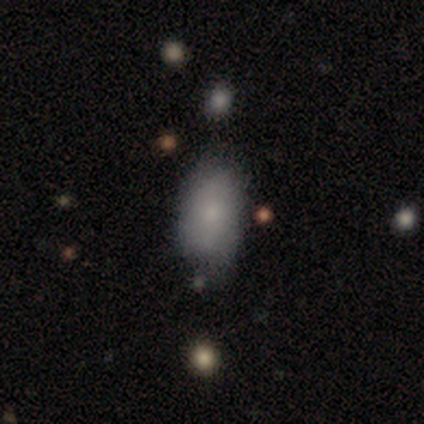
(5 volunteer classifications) Q: Smooth or featured?
A: smooth (100%)
Q: How rounded?
A: in between (80%); runner-up: cigar-shaped (20%)
Q: Merging?
A: none (60%); runner-up: minor disturbance (40%)